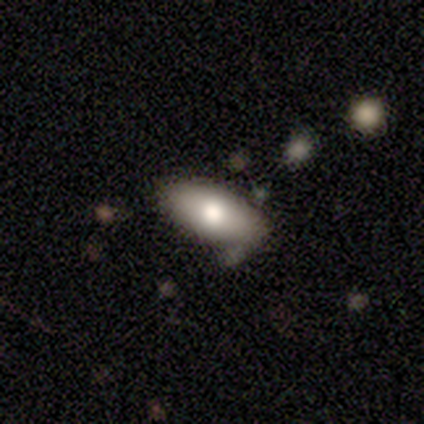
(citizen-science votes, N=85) Smooth or featured? 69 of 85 (81%) said smooth. How rounded? 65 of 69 (94%) said in between. Merging? 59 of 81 (73%) said none.